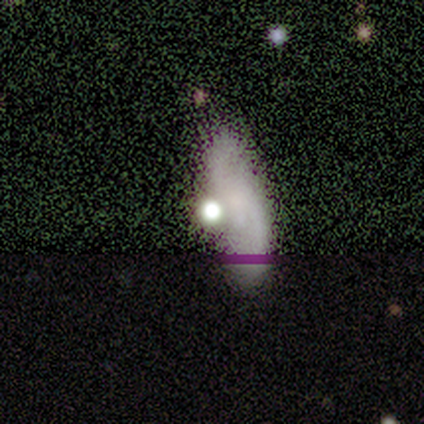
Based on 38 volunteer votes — Q: Smooth or featured?
A: featured or disk (42%); runner-up: star or artifact (37%)
Q: Edge-on disk?
A: no (88%); runner-up: yes (12%)
Q: Bar?
A: no (57%); runner-up: weak (43%)
Q: Spiral arms?
A: yes (64%); runner-up: no (36%)
Q: Spiral winding?
A: loose (89%); runner-up: tight (11%)
Q: Spiral arm count?
A: 2 (100%)
Q: Bulge size?
A: none (64%); runner-up: large (14%)
Q: Merging?
A: none (42%); runner-up: minor disturbance (21%)